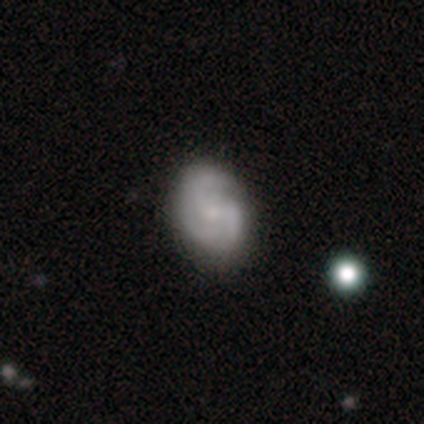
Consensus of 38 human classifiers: smooth_or_featured: featured or disk (p=0.63) [alt: smooth p=0.26]
disk_edge_on: no (p=1.00)
bar: no (p=0.79) [alt: weak p=0.21]
has_spiral_arms: yes (p=0.96) [alt: no p=0.04]
spiral_winding: medium (p=0.61) [alt: tight p=0.30]
spiral_arm_count: 3 (p=0.74) [alt: 2 p=0.17]
bulge_size: small (p=0.58) [alt: moderate p=0.29]
merging: none (p=0.79) [alt: minor disturbance p=0.12]